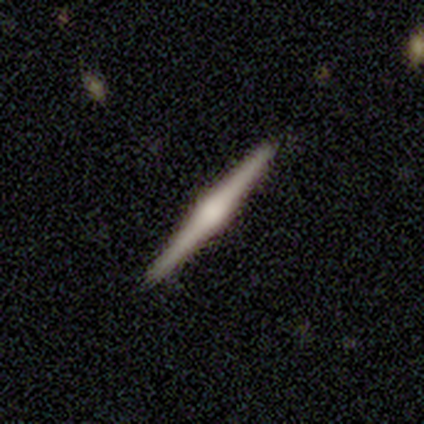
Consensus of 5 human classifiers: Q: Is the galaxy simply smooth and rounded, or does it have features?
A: featured or disk — 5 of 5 (100%).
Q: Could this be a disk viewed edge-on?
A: yes — 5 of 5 (100%).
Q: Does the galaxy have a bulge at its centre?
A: rounded — 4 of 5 (80%).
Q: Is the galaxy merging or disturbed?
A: none — 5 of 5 (100%).